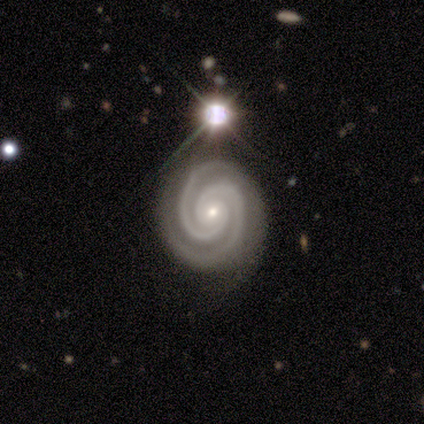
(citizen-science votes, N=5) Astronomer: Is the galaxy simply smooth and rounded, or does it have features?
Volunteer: featured or disk — 100%.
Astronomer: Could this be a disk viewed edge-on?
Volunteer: no — 100%.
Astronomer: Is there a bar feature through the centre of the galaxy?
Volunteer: no — 60%.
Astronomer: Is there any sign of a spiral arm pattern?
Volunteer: yes — 100%.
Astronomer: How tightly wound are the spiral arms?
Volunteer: tight — 60% (runner-up: medium, 40%).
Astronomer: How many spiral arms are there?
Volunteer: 2 — 60% (runner-up: 4, 40%).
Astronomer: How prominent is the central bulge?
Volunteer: small — 80%.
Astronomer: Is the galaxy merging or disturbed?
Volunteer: none — 80%.